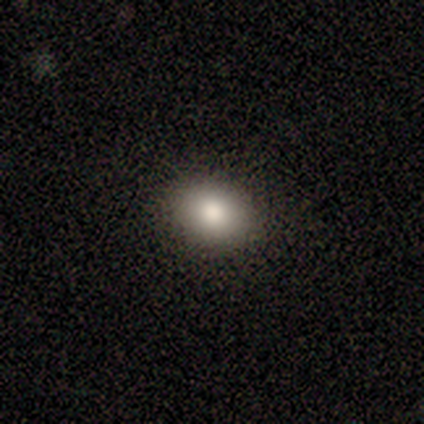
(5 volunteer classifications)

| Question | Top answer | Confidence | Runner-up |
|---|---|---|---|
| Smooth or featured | smooth | 80% | featured or disk (20%) |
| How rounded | in between | 75% | round (25%) |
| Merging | none | 80% | minor disturbance (20%) |